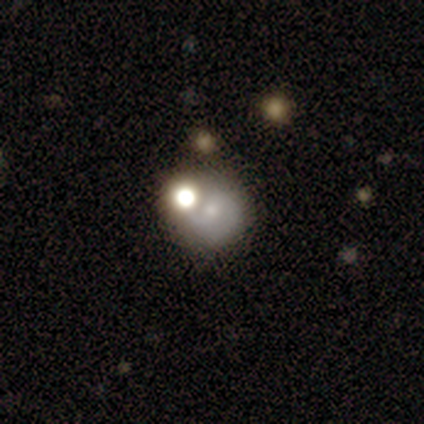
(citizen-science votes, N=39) Overall: smooth (44%; featured or disk 33%). How rounded: round (76%). Merging: none (47%; merger 27%).